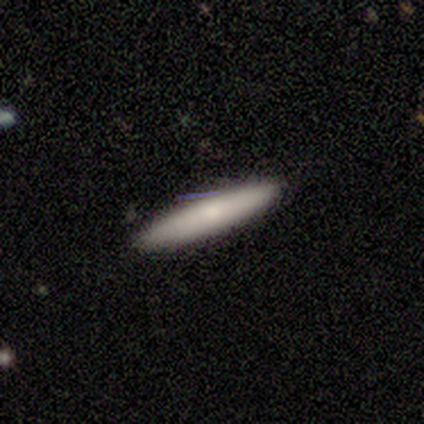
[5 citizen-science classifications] Morphology: type=smooth (100%); roundness=cigar-shaped (100%); merging=none (100%).